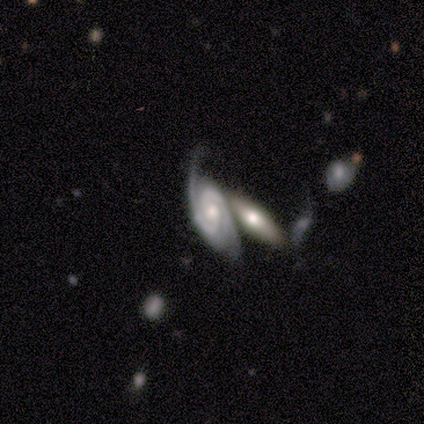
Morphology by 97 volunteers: Overall: featured or disk (93%). Edge-on disk: no (93%). Bar: no (65%). Spiral arms: yes (92%). Spiral arm count: 2 (87%). Spiral winding: tight (64%; medium 29%). Bulge size: moderate (64%; small 26%). Merging: merger (47%; none 20%).